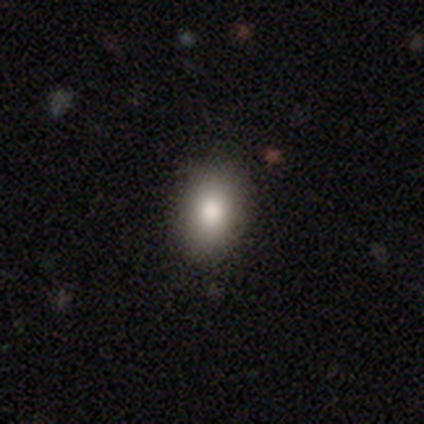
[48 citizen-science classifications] smooth_or_featured: smooth (p=0.88) [alt: star or artifact p=0.10]
how_rounded: in between (p=0.76) [alt: round p=0.24]
merging: none (p=0.98) [alt: minor disturbance p=0.02]